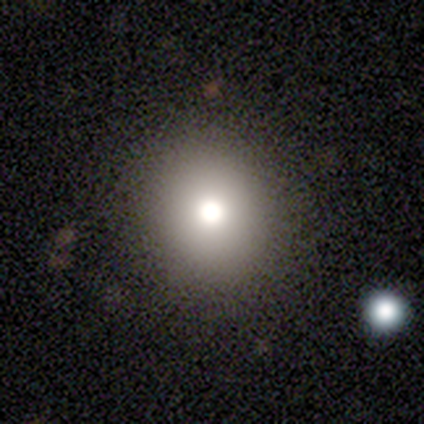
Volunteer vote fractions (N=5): Smooth or featured: smooth — 100%
How rounded: round — 100%
Merging: none — 100%